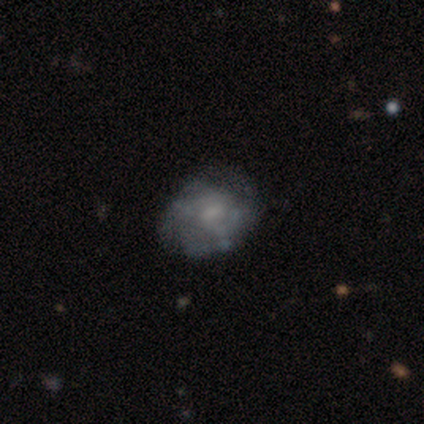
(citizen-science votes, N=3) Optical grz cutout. It shows a featured or disk galaxy (67%) with a weak bar (50%, tied with no), 2 (50%, tied with can't tell) tight (50%, tied with loose) spiral arms (100%) and a moderate central bulge (50%, tied with small). Merging: none (67%).